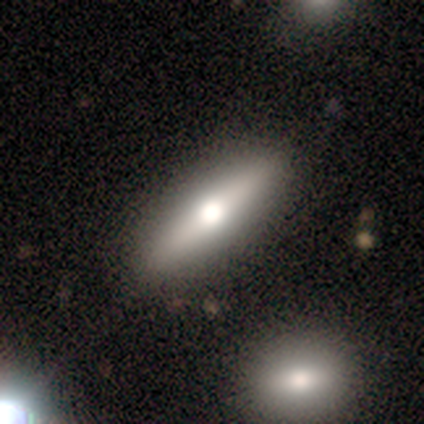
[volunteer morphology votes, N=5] Smooth or featured? featured or disk (100%)
Edge-on disk? yes (100%)
Edge-on bulge? rounded (80%)
Merging? none (60%)